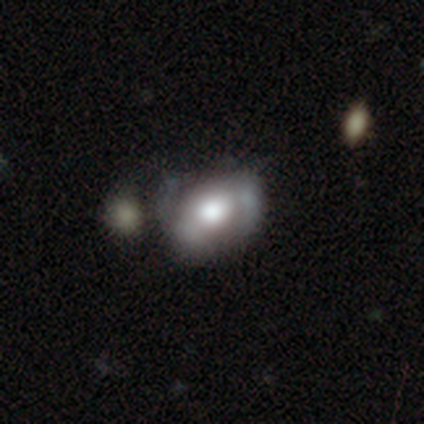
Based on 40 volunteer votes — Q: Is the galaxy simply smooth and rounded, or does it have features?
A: featured or disk — 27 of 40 (68%).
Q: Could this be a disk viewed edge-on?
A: no — 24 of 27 (89%).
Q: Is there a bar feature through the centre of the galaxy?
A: no — 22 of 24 (92%).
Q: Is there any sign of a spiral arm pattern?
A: no — 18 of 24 (75%).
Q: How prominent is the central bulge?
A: large — 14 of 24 (58%).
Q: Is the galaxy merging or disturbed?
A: minor disturbance — 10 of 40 (25%).